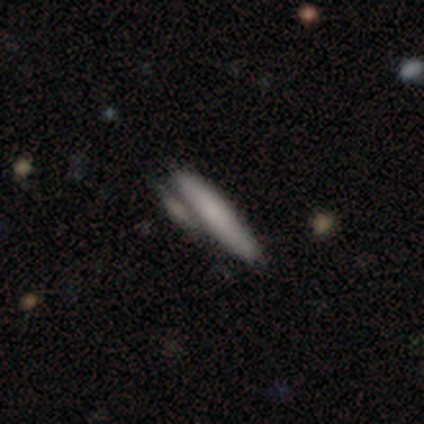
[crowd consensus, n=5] Smooth or featured? smooth (80%)
How rounded? cigar-shaped (100%)
Merging? none (60%)